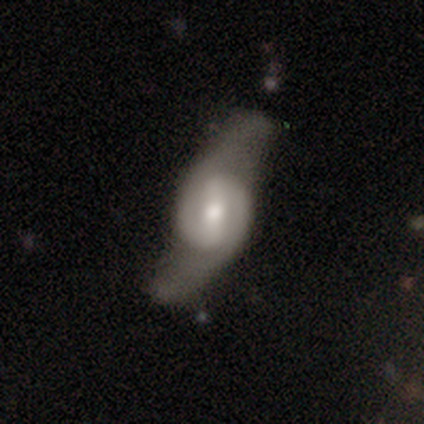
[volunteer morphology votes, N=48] smooth_or_featured: featured or disk (p=0.94) [alt: smooth p=0.04]
disk_edge_on: no (p=0.84) [alt: yes p=0.16]
bar: strong (p=0.45) [alt: weak p=0.29]
has_spiral_arms: yes (p=0.89) [alt: no p=0.11]
spiral_winding: loose (p=0.44) [alt: medium p=0.29]
spiral_arm_count: 2 (p=0.97) [alt: can't tell p=0.03]
bulge_size: moderate (p=0.76) [alt: small p=0.21]
merging: none (p=0.53) [alt: major disturbance p=0.23]